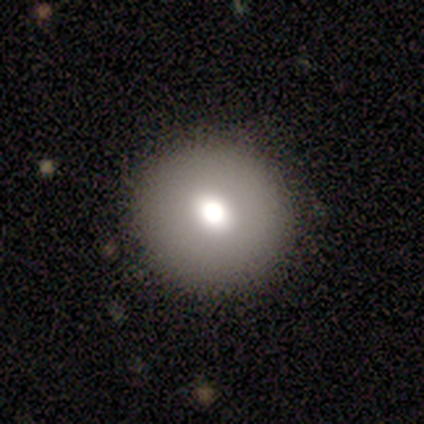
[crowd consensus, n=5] smooth-or-featured: smooth: 80% | star or artifact: 20% | featured or disk: 0%
  how-rounded: round: 100% | in between: 0% | cigar-shaped: 0%
  merging: none: 75% | minor disturbance: 25% | major disturbance: 0% | merger: 0%